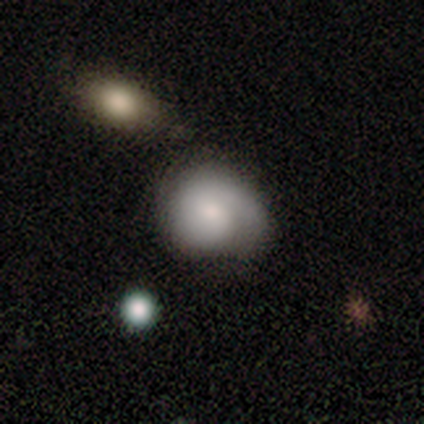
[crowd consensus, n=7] This appears to be a smooth galaxy with no disk features (71%) that is round (60%). Merging: none (50%).